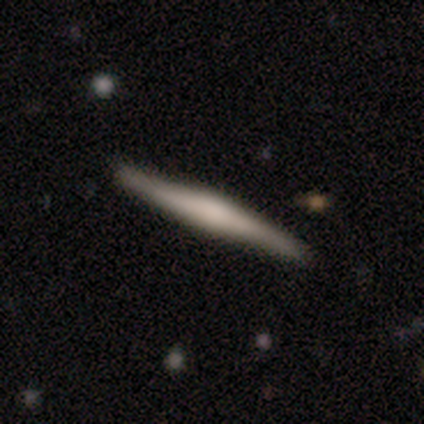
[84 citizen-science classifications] Overall: featured or disk (63%; smooth 33%). Edge-on disk: yes (89%). Edge-on bulge: rounded (51%; boxy 34%). Merging: none (84%).